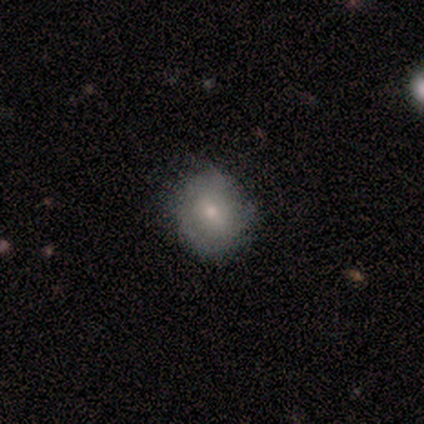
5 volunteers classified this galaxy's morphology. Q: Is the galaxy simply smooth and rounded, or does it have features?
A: smooth — 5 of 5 (100%).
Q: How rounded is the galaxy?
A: round — 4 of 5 (80%).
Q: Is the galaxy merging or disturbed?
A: none — 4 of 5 (80%).